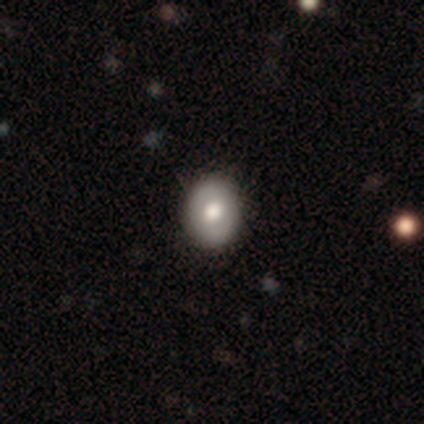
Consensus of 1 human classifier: Overall: smooth (100%). How rounded: round (100%). Merging: none (100%).